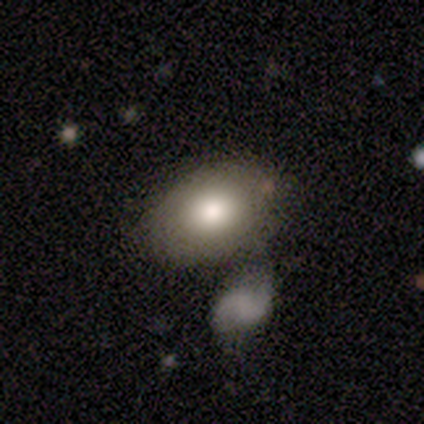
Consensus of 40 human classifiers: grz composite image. It shows a smooth galaxy with no disk features (75%) that is in between round and cigar-shaped (83%). Merging: none (61%).